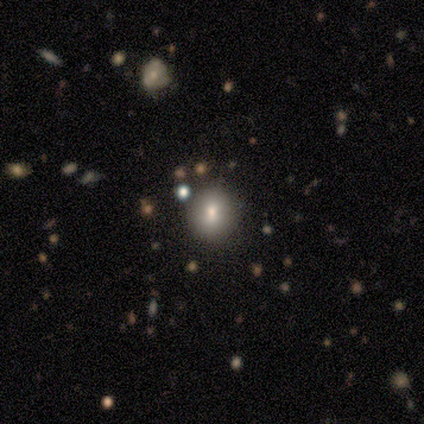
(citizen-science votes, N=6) Smooth or featured: smooth — 100%
How rounded: round — 83% (in between — 17%)
Merging: none — 100%